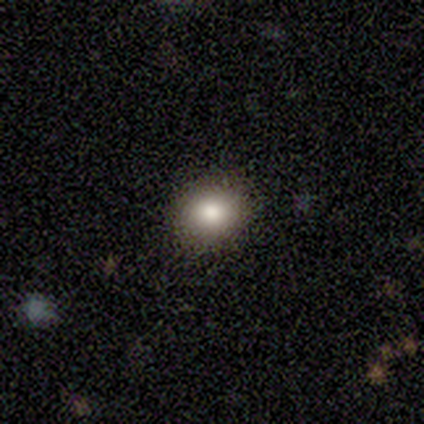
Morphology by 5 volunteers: smooth-or-featured: smooth: 100% | featured or disk: 0% | star or artifact: 0%
  how-rounded: round: 100% | in between: 0% | cigar-shaped: 0%
  merging: none: 80% | major disturbance: 20% | minor disturbance: 0% | merger: 0%